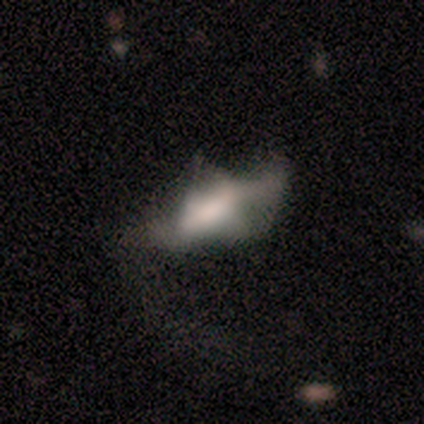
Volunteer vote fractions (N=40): Overall: featured or disk (62%; smooth 32%). Edge-on disk: no (84%). Bar: no (67%). Spiral arms: no (81%). Bulge size: large (29%, tied with none). Merging: major disturbance (58%; none 21%).